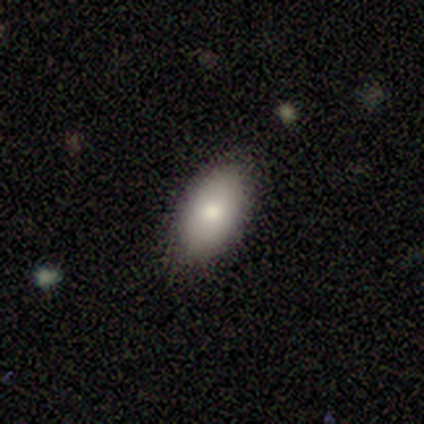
smooth 80%, star or artifact 20%, featured or disk 0%. Down the decision tree: how rounded — in between (100%); merging — none (75%).